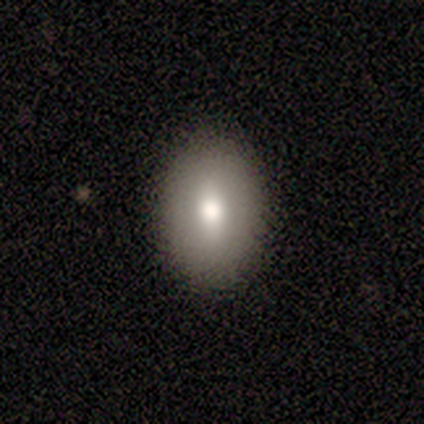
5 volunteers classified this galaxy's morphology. Smooth or featured?
  - smooth: 60% *
  - featured or disk: 40%
  - star or artifact: 0%
How rounded?
  - in between: 67% *
  - round: 33%
  - cigar-shaped: 0%
Merging?
  - none: 100% *
  - minor disturbance: 0%
  - major disturbance: 0%
  - merger: 0%